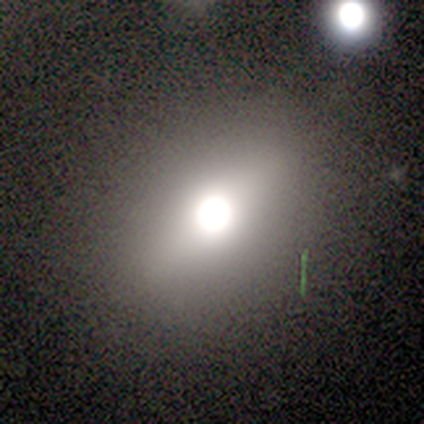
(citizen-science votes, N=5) Q: Smooth or featured?
A: smooth (60%); runner-up: featured or disk (40%)
Q: How rounded?
A: in between (67%); runner-up: round (33%)
Q: Merging?
A: none (80%); runner-up: major disturbance (20%)